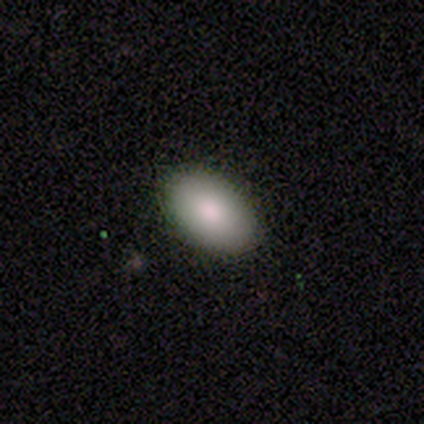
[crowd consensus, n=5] smooth-or-featured: smooth: 100% | featured or disk: 0% | star or artifact: 0%
  how-rounded: in between: 100% | round: 0% | cigar-shaped: 0%
  merging: none: 60% | minor disturbance: 40% | major disturbance: 0% | merger: 0%